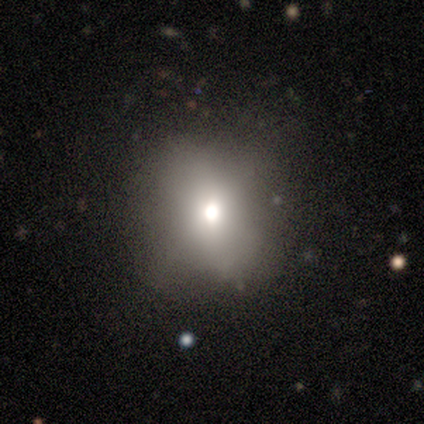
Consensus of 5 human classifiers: Overall: smooth (60%; featured or disk 20%). How rounded: round (100%). Merging: none (100%).